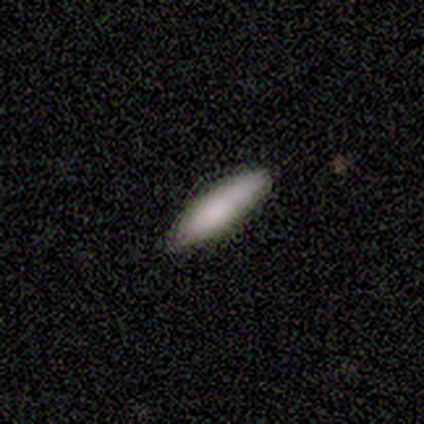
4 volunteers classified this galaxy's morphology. A smooth galaxy with no disk features (75%) that is cigar-shaped (67%).

Vote fractions:
- Smooth or featured? smooth: 75% / featured or disk: 25% / star or artifact: 0%
- How rounded? cigar-shaped: 67% / in between: 33% / round: 0%
- Merging? none: 75% / minor disturbance: 25% / major disturbance: 0% / merger: 0%